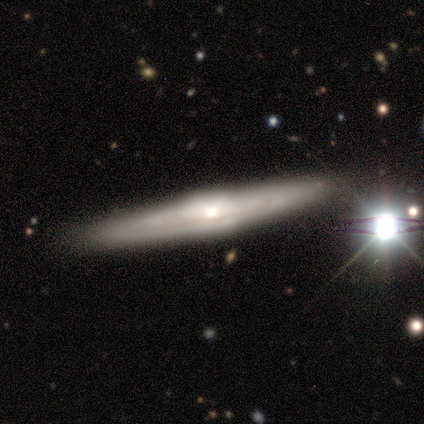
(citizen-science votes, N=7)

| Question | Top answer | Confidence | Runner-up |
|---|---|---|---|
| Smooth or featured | featured or disk | 86% | smooth (14%) |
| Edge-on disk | yes | 67% | no (33%) |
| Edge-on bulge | rounded | 75% | none (25%) |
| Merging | none | 100% | — |